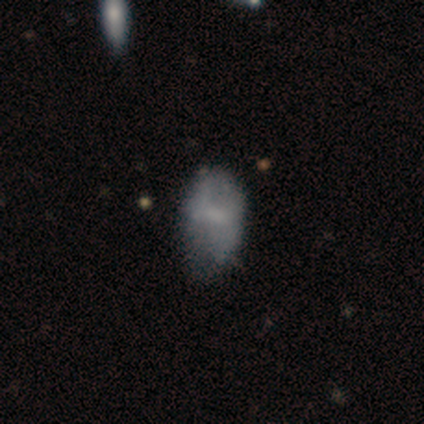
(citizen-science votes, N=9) Volunteers were most divided on "smooth or featured": smooth: 67%, featured or disk: 33%, star or artifact: 0%. More confident: how rounded — in between (100%); merging — none (67%).